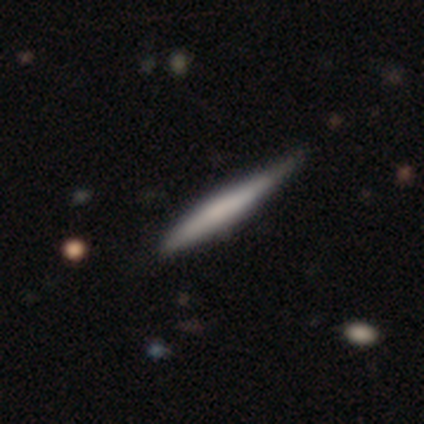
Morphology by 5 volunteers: This is clearly a smooth galaxy (80%). How rounded: clearly cigar-shaped (100%). Merging: possibly none (50%, tied with minor disturbance).